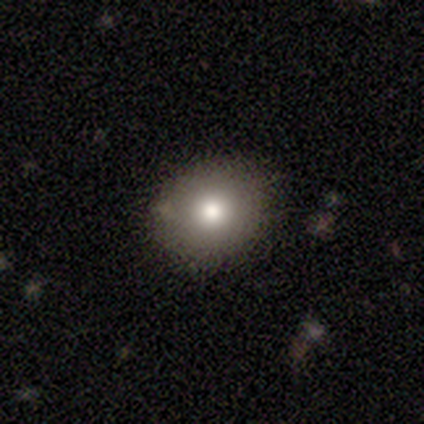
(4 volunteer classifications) smooth-or-featured: smooth: 100% | featured or disk: 0% | star or artifact: 0%
  how-rounded: round: 75% | in between: 25% | cigar-shaped: 0%
  merging: none: 100% | minor disturbance: 0% | major disturbance: 0% | merger: 0%